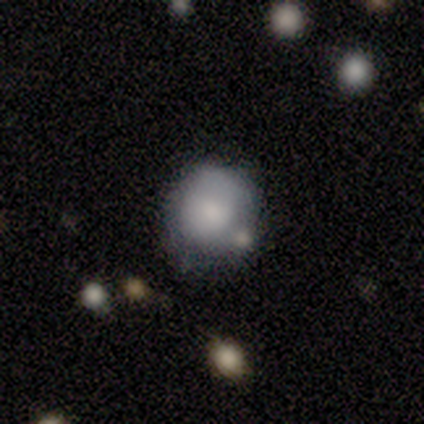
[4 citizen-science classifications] Morphology: type=smooth (75%); roundness=round (67%); merging=none (33%, tied with minor disturbance and major disturbance).